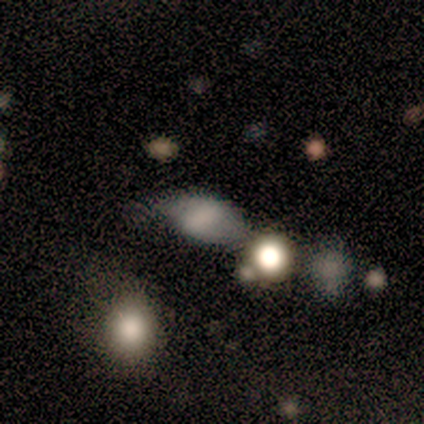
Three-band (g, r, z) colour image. It shows a smooth galaxy with no disk features (77%) that is in between round and cigar-shaped (70%). Merging: none (64%).